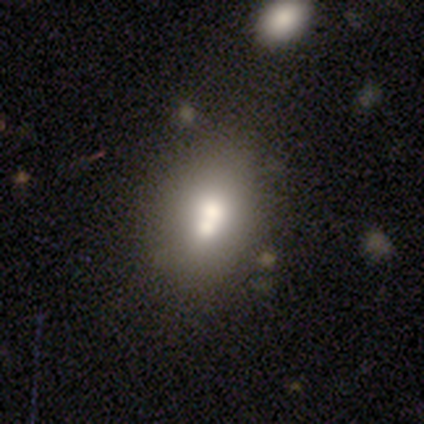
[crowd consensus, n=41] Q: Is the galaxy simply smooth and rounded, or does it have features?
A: smooth — 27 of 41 (66%).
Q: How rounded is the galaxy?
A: in between — 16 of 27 (59%).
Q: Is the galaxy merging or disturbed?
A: merger — 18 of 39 (46%).